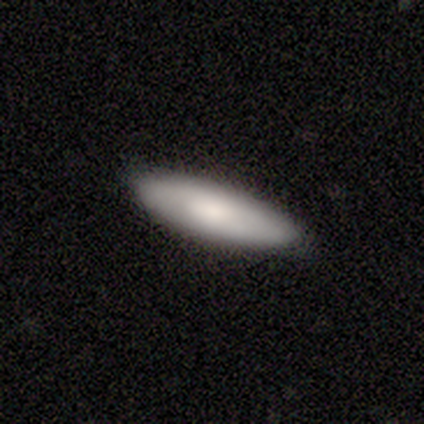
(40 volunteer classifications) Q: Smooth or featured?
A: smooth (72%); runner-up: featured or disk (22%)
Q: How rounded?
A: cigar-shaped (66%); runner-up: in between (34%)
Q: Merging?
A: none (92%); runner-up: minor disturbance (8%)